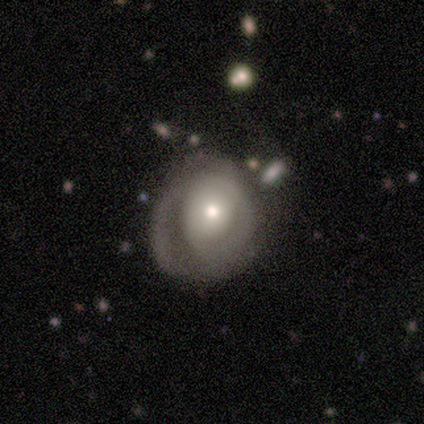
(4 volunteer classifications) Smooth or featured?
  - featured or disk: 75% *
  - smooth: 25%
  - star or artifact: 0%
Edge-on disk?
  - no: 100% *
  - yes: 0%
Bar?
  - no: 67% *
  - weak: 33%
  - strong: 0%
Spiral arms?
  - yes: 100% *
  - no: 0%
Spiral winding?
  - medium: 67% *
  - tight: 33%
  - loose: 0%
Spiral arm count?
  - 2: 67% *
  - 1: 33%
  - 3: 0%
  - 4: 0%
  - more than 4: 0%
  - can't tell: 0%
Bulge size?
  - moderate: 67% *
  - small: 33%
  - dominant: 0%
  - large: 0%
  - none: 0%
Merging?
  - none: 100% *
  - minor disturbance: 0%
  - major disturbance: 0%
  - merger: 0%